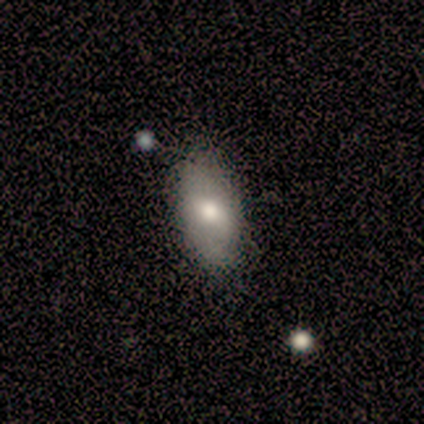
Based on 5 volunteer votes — Smooth or featured?
  - smooth: 80% *
  - featured or disk: 20%
  - star or artifact: 0%
How rounded?
  - in between: 100% *
  - round: 0%
  - cigar-shaped: 0%
Merging?
  - none: 60% *
  - minor disturbance: 40%
  - major disturbance: 0%
  - merger: 0%